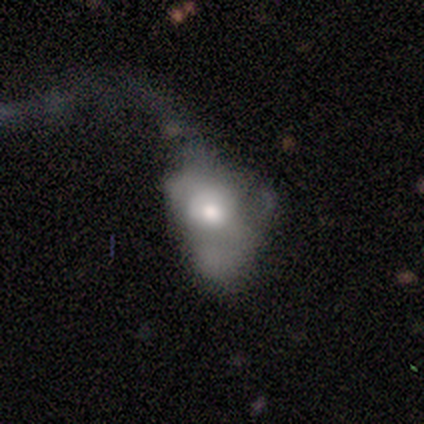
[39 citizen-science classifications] Smooth or featured? featured or disk (59%)
Edge-on disk? no (91%)
Bar? no (90%)
Spiral arms? no (90%)
Bulge size? moderate (57%)
Merging? major disturbance (71%)